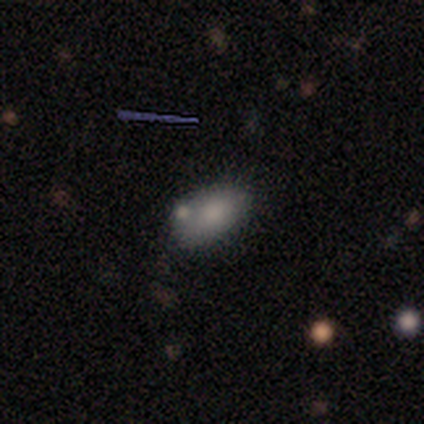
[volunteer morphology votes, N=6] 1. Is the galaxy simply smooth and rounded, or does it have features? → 83% smooth, 17% star or artifact, 0% featured or disk.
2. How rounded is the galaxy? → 100% in between, 0% round, 0% cigar-shaped.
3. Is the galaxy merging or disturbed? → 40% none (tied), 40% merger (tied), 20% minor disturbance, 0% major disturbance.